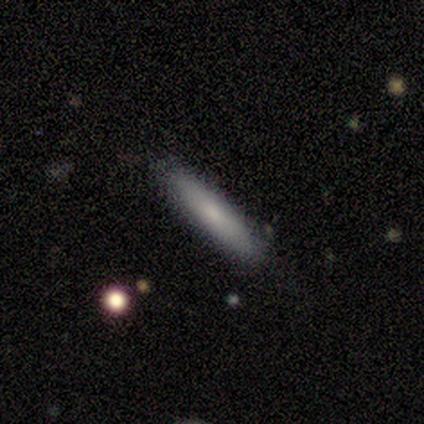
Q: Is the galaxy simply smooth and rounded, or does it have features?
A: smooth — 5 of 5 (100%).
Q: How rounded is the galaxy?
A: cigar-shaped — 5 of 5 (100%).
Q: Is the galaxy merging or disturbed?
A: none — 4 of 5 (80%).